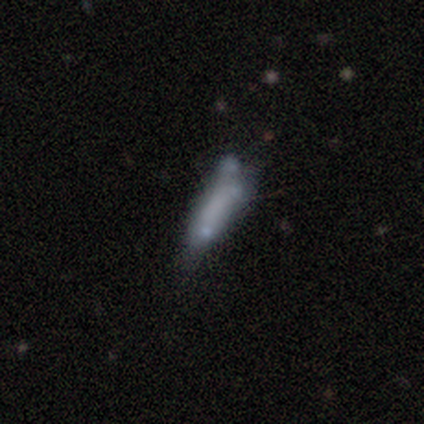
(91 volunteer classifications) smooth-or-featured: smooth: 58% | featured or disk: 31% | star or artifact: 11%
  how-rounded: cigar-shaped: 58% | in between: 40% | round: 2%
  merging: minor disturbance: 33% | none: 30% | major disturbance: 19% | merger: 19%